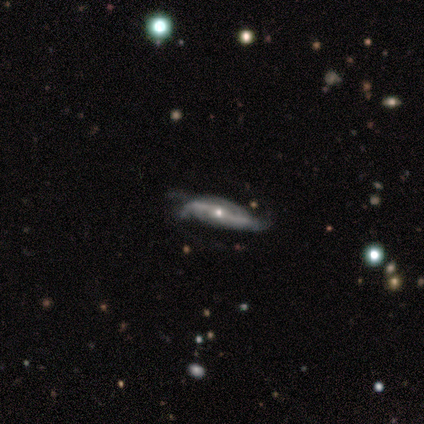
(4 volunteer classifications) smooth-or-featured: featured or disk: 75% | smooth: 25% | star or artifact: 0%
  disk-edge-on: no: 67% | yes: 33%
    bar: strong: 100% | weak: 0% | no: 0%
    has-spiral-arms: yes: 100% | no: 0%
      spiral-winding: tight: 50% (tied) | medium: 50% (tied) | loose: 0%
      spiral-arm-count: 2: 100% | 1: 0% | 3: 0% | 4: 0% | more than 4: 0% | can't tell: 0%
    bulge-size: small: 100% | dominant: 0% | large: 0% | moderate: 0% | none: 0%
  merging: none: 50% | minor disturbance: 25% | major disturbance: 25% | merger: 0%